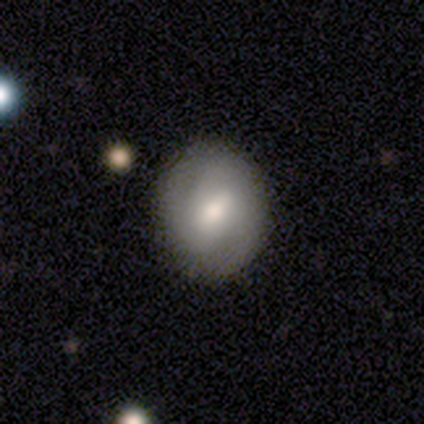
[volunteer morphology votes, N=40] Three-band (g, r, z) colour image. It shows a featured or disk galaxy (52%) with a weak bar (38%), 2 (63%) medium (68%) spiral arms (90%) and a moderate central bulge (67%). Merging: none (92%).